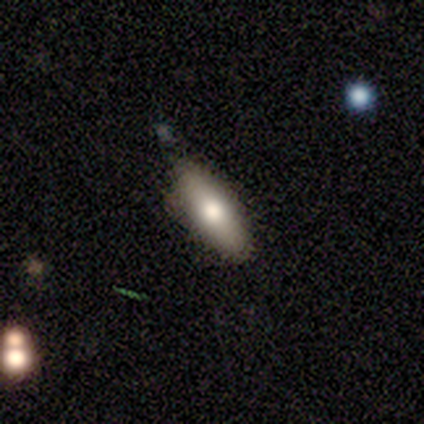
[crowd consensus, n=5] This is likely a smooth galaxy (60%). How rounded: likely cigar-shaped (67%). Merging: likely none (60%).